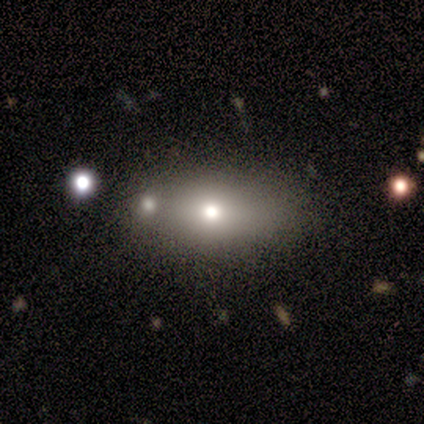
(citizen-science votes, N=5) This appears to be a smooth galaxy with no disk features (40%, tied with featured or disk) that is in between round and cigar-shaped (100%). Merging: none (50%, tied with minor disturbance).